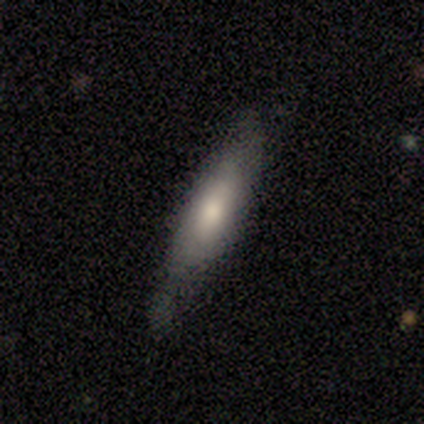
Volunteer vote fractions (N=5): A smooth galaxy with no disk features (80%) that is cigar-shaped (75%).

Vote fractions:
- Smooth or featured? smooth: 80% / featured or disk: 20% / star or artifact: 0%
- How rounded? cigar-shaped: 75% / in between: 25% / round: 0%
- Merging? none: 100% / minor disturbance: 0% / major disturbance: 0% / merger: 0%